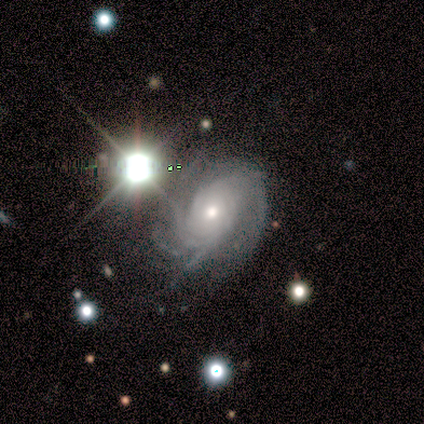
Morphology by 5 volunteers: A featured or disk galaxy (80%) with no bar (100%), 3 (50%, tied with can't tell) tight (75%) spiral arms (100%) and a moderate central bulge (100%). Merging: none (75%).